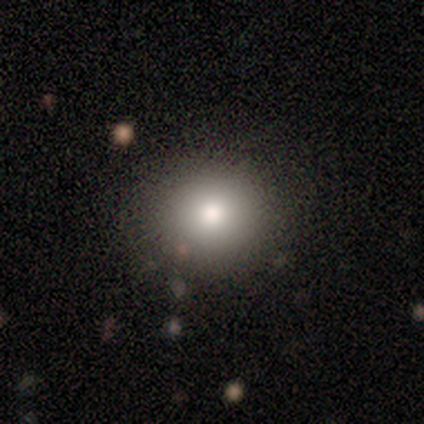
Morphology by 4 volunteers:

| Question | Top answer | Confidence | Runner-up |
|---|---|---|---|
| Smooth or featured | smooth | 100% | — |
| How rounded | round | 75% | in between (25%) |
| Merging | none | 100% | — |